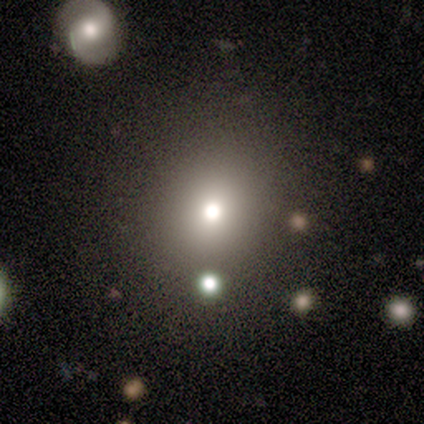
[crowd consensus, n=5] A star or artifact, not a galaxy (60%).

Vote fractions:
- Smooth or featured? star or artifact: 60% / smooth: 40% / featured or disk: 0%